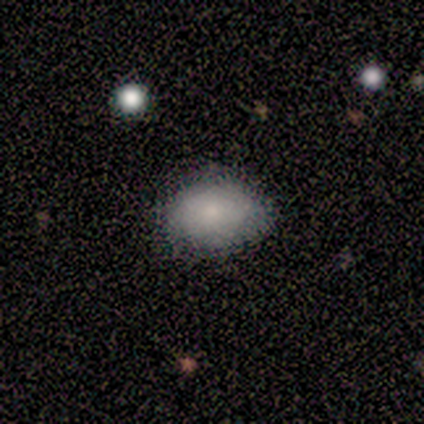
smooth-or-featured: smooth: 100% | featured or disk: 0% | star or artifact: 0%
  how-rounded: in between: 100% | round: 0% | cigar-shaped: 0%
  merging: none: 100% | minor disturbance: 0% | major disturbance: 0% | merger: 0%